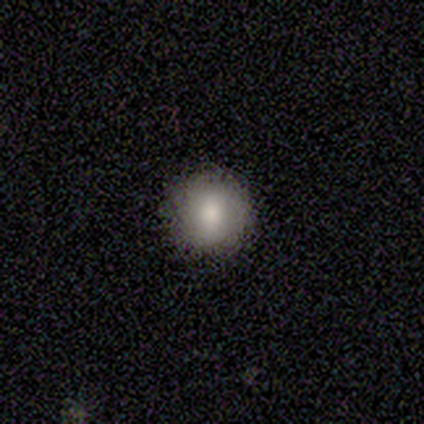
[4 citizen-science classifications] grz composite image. It shows a smooth galaxy with no disk features (75%) that is round (100%). Merging: none (100%).